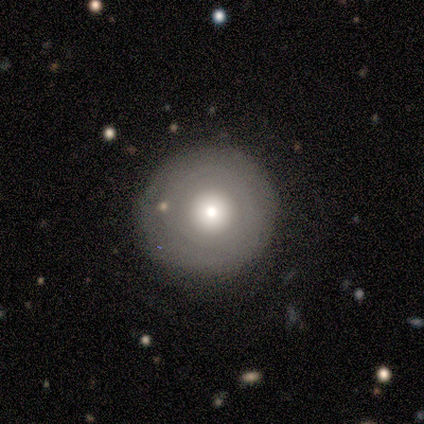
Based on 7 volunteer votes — smooth_or_featured: featured or disk (p=0.57) [alt: smooth p=0.43]
disk_edge_on: no (p=1.00)
bar: no (p=0.75) [alt: weak p=0.25]
has_spiral_arms: no (p=0.75) [alt: yes p=0.25]
bulge_size: moderate (p=0.50) [alt: large p=0.25]
merging: none (p=0.86) [alt: minor disturbance p=0.14]